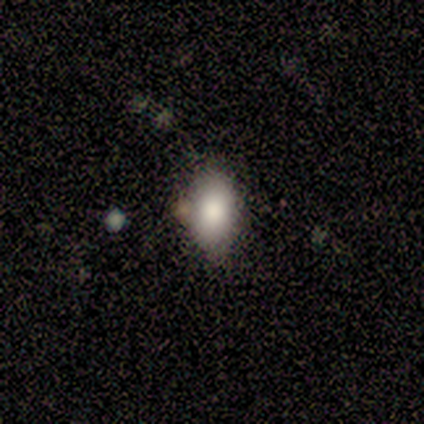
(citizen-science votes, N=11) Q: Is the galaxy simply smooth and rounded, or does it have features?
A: smooth — 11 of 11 (100%).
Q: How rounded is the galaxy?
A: in between — 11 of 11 (100%).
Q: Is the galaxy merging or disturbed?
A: none — 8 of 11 (73%).